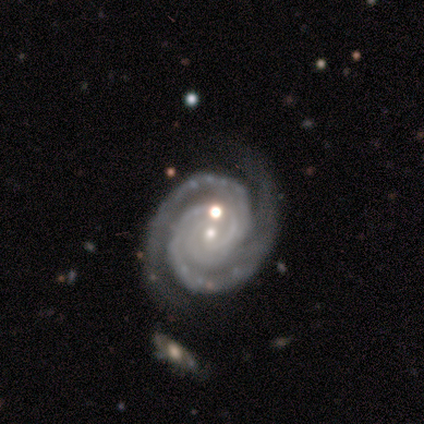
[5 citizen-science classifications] smooth-or-featured: featured or disk: 100% | smooth: 0% | star or artifact: 0%
  disk-edge-on: no: 100% | yes: 0%
    bar: no: 80% | weak: 20% | strong: 0%
    has-spiral-arms: yes: 100% | no: 0%
      spiral-winding: tight: 100% | medium: 0% | loose: 0%
      spiral-arm-count: 2: 100% | 1: 0% | 3: 0% | 4: 0% | more than 4: 0% | can't tell: 0%
    bulge-size: small: 100% | dominant: 0% | large: 0% | moderate: 0% | none: 0%
  merging: none: 80% | minor disturbance: 20% | major disturbance: 0% | merger: 0%